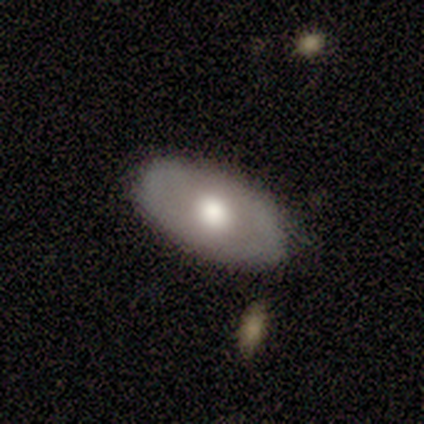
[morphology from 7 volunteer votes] A smooth galaxy with no disk features (86%) that is in between round and cigar-shaped (100%).

Vote fractions:
- Smooth or featured? smooth: 86% / featured or disk: 14% / star or artifact: 0%
- How rounded? in between: 100% / round: 0% / cigar-shaped: 0%
- Merging? none: 43% (tied) / minor disturbance: 43% (tied) / merger: 14% / major disturbance: 0%